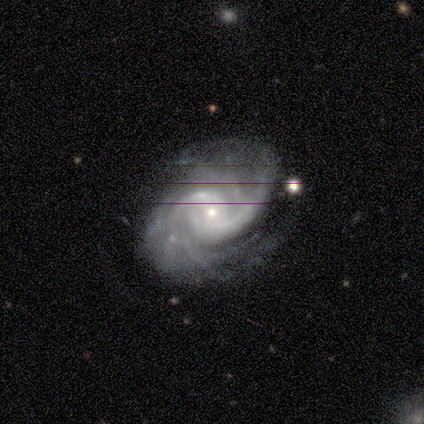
Smooth or featured: featured or disk — 100%
Edge-on disk: no — 100%
Bar: no — 60% (strong — 20%)
Spiral arms: yes — 100%
Spiral winding: tight — 60% (medium — 40%)
Spiral arm count: 2 — 40% (3 — 20%)
Bulge size: small — 100%
Merging: none — 80% (minor disturbance — 20%)